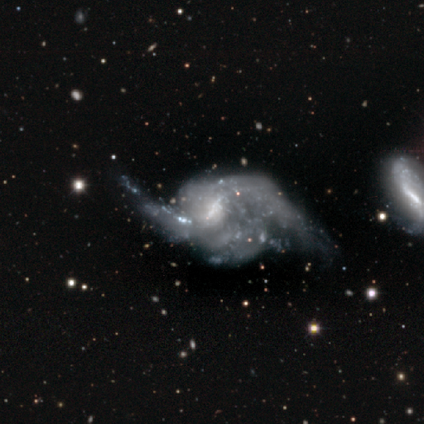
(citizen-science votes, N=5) Volunteers were most divided on "bar" (2-way tie): weak: 50%, no: 50%, strong: 0%; "spiral arm count" (4-way tie): 1: 25%, 2: 25%, 3: 25%, can't tell: 25%, 4: 0%, more than 4: 0%; "bulge size" (2-way tie): moderate: 50%, none: 50%, dominant: 0%, large: 0%, small: 0%; "merging" (2-way tie): minor disturbance: 40%, major disturbance: 40%, none: 20%, merger: 0%. More confident: smooth or featured — featured or disk (100%); spiral arms — yes (100%); edge-on disk — no (80%); spiral winding — loose (75%).